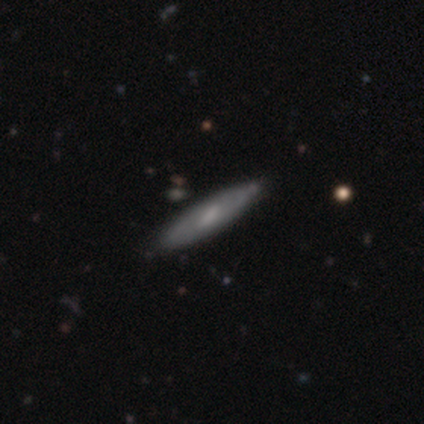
This appears to be a featured or disk galaxy (60%) with a strong bar (50%, tied with weak), tight (100%) spiral arms (50%, tied with no) and a small central bulge (50%, tied with none). Merging: none (100%).